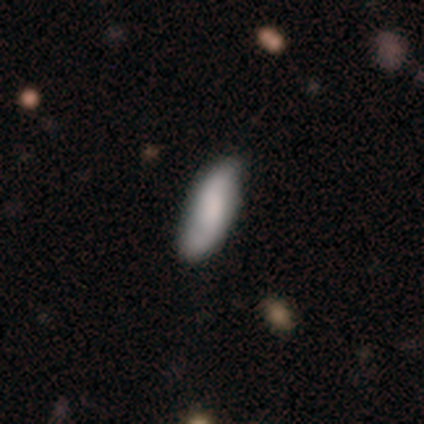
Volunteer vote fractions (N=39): smooth-or-featured: smooth: 69% | featured or disk: 26% | star or artifact: 5%
  how-rounded: cigar-shaped: 56% | in between: 44% | round: 0%
  merging: none: 70% | minor disturbance: 27% | merger: 3% | major disturbance: 0%